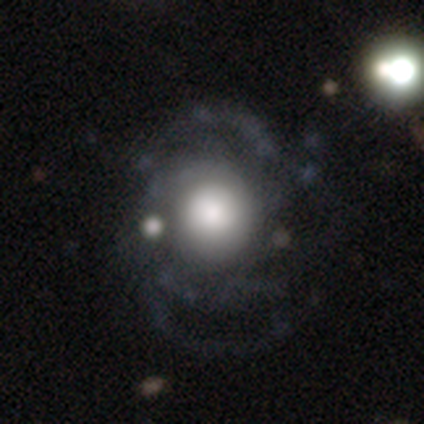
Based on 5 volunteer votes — This is marginally a smooth galaxy (40%, tied with featured or disk). How rounded: clearly round (100%). Merging: likely none (75%).